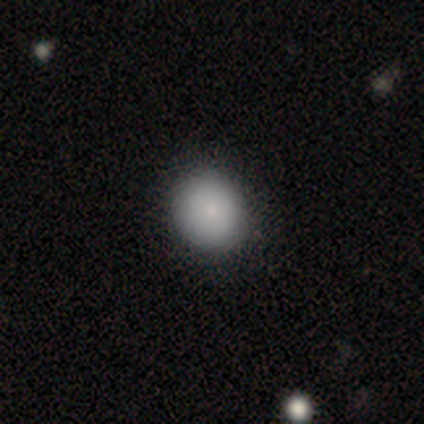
Q: Smooth or featured?
A: smooth (89%); runner-up: star or artifact (8%)
Q: How rounded?
A: round (64%); runner-up: in between (36%)
Q: Merging?
A: none (44%); runner-up: minor disturbance (5%)